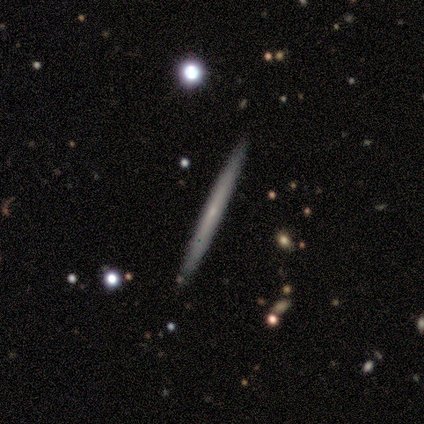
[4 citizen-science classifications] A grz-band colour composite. It shows a featured or disk galaxy (75%) viewed edge-on (100%) with a rounded central bulge (100%). Merging: none (100%).